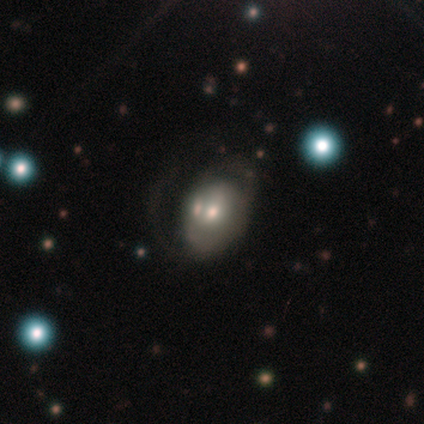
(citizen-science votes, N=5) featured or disk 60%, smooth 40%, star or artifact 0%. Down the decision tree: edge-on disk — no (100%); bar — weak (67%); spiral arms — yes (67%); spiral arm count — 1 (50%, tied with can't tell); spiral winding — tight (50%, tied with medium); bulge size — moderate (100%); merging — major disturbance (60%).